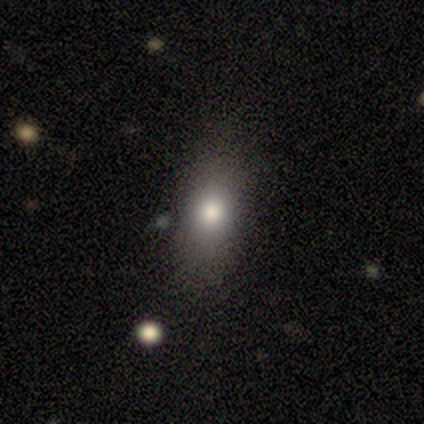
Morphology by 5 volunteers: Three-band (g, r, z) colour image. It shows a smooth galaxy with no disk features (60%) that is round (33%, tied with in between and cigar-shaped). Merging: none (67%).